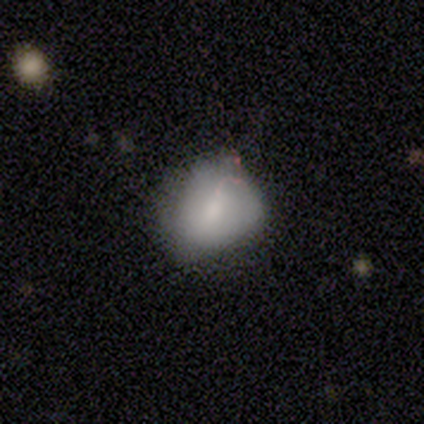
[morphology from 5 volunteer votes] smooth_or_featured: smooth (p=0.60) [alt: featured or disk p=0.20]
how_rounded: in between (p=0.67) [alt: round p=0.33]
merging: none (p=0.50) [tied with: minor disturbance p=0.50]